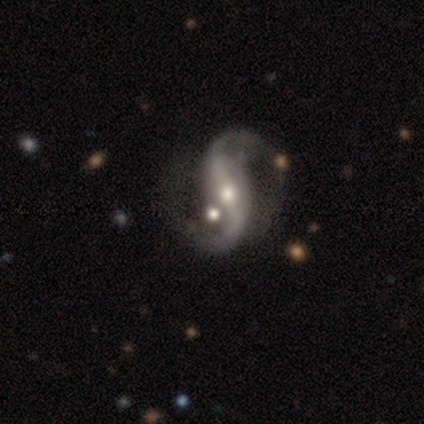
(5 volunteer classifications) Smooth or featured: featured or disk — 100%
Edge-on disk: no — 100%
Bar: strong — 60% (weak — 20%)
Spiral arms: yes — 100%
Spiral winding: loose — 80% (medium — 20%)
Spiral arm count: 2 — 100%
Bulge size: moderate — 60% (small — 40%)
Merging: none — 60% (minor disturbance — 20%)